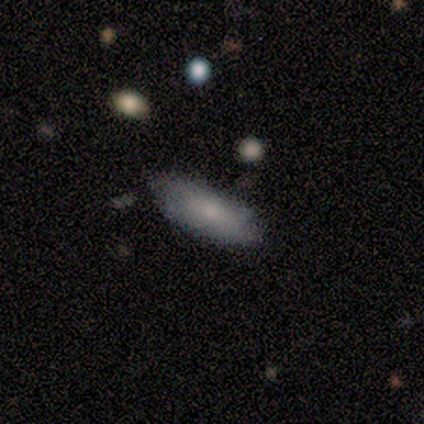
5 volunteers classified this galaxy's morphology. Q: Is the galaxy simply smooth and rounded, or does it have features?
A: smooth — 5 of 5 (100%).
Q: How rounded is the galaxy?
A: in between — 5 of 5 (100%).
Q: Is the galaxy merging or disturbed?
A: none — 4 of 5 (80%).